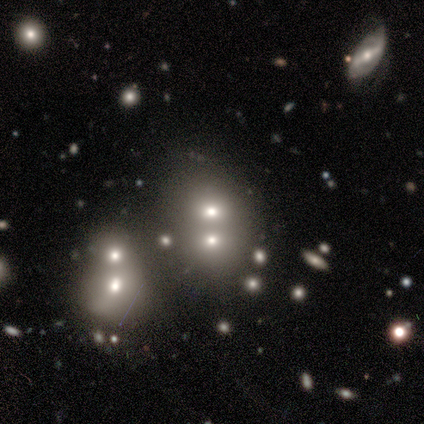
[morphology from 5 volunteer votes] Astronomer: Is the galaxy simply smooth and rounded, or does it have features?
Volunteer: smooth — 60% (runner-up: featured or disk, 40%).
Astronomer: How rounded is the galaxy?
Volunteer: round — 100%.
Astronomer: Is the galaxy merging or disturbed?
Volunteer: merger — 80%.